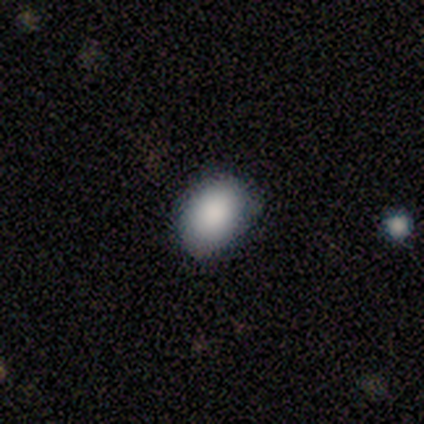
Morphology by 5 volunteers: Smooth or featured: smooth — 100%
How rounded: in between — 80% (round — 20%)
Merging: minor disturbance — 60% (none — 40%)